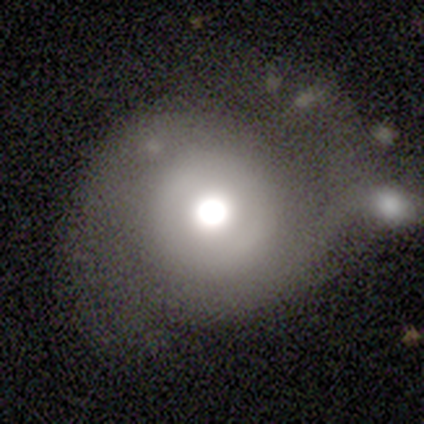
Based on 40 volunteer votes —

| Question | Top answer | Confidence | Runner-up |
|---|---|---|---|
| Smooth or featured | featured or disk | 42% | smooth (40%) |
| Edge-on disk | no | 100% | — |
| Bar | no | 88% | weak (12%) |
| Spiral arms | yes | 59% | no (41%) |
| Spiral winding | loose | 50% | tight (40%) |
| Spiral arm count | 2 | 80% | can't tell (20%) |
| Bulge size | moderate | 47% | large (29%) |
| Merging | none | 48% | major disturbance (24%) |